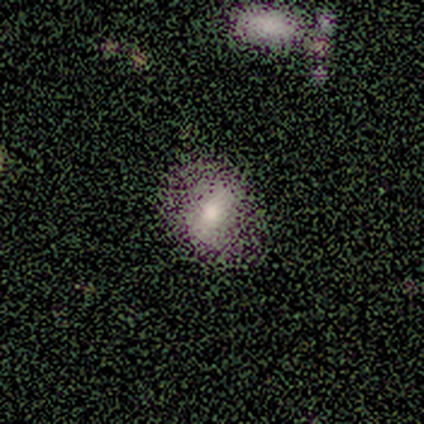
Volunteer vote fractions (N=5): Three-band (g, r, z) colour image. It shows a smooth galaxy with no disk features (40%, tied with featured or disk) that is in between round and cigar-shaped (100%). Merging: none (50%).